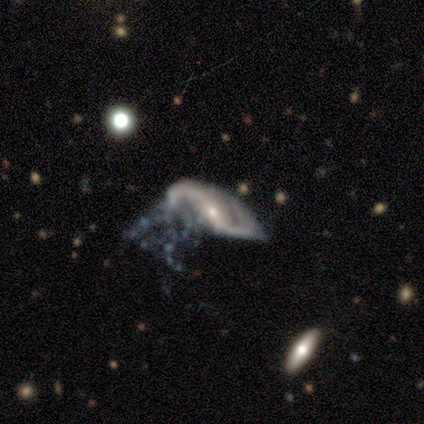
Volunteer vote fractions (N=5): Smooth or featured? 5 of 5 (100%) said featured or disk. Edge-on disk? 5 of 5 (100%) said no. Bar? 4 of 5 (80%) said no. Spiral arms? 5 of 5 (100%) said yes. Spiral winding? 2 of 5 (40%, tied with loose) said medium. Spiral arm count? 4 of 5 (80%) said 2. Bulge size? 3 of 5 (60%) said small. Merging? 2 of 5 (40%, tied with merger) said minor disturbance.